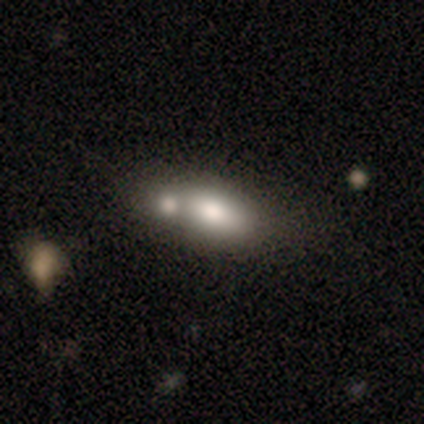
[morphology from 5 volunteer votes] Smooth or featured: smooth — 100%
How rounded: in between — 100%
Merging: merger — 80% (none — 20%)